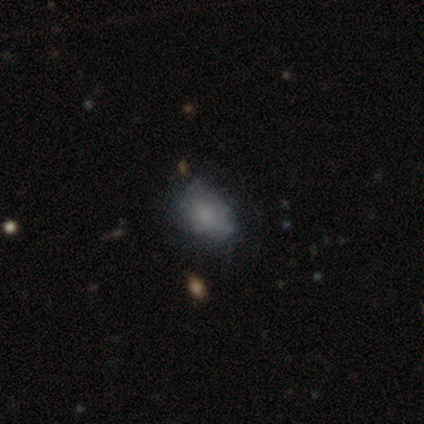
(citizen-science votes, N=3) smooth 67%, featured or disk 33%, star or artifact 0%. Down the decision tree: how rounded — in between (100%); merging — none (100%).